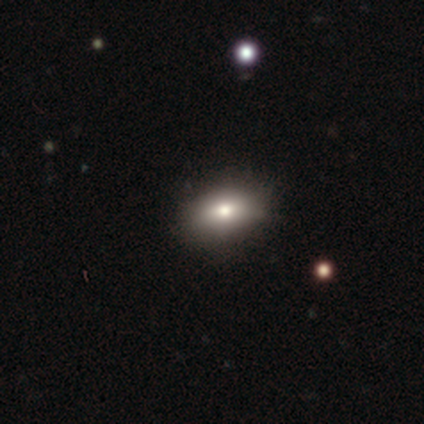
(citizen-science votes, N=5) Q: Smooth or featured?
A: smooth (80%); runner-up: star or artifact (20%)
Q: How rounded?
A: in between (100%)
Q: Merging?
A: none (100%)